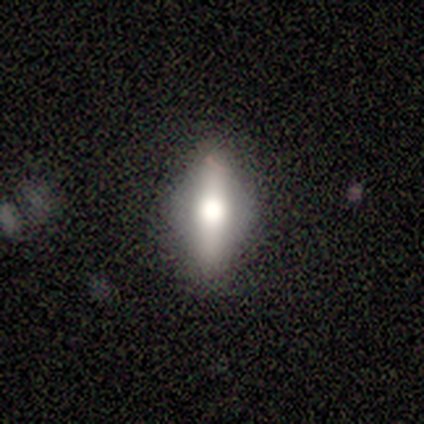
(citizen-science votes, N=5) smooth-or-featured: smooth: 60% | featured or disk: 40% | star or artifact: 0%
  how-rounded: in between: 67% | cigar-shaped: 33% | round: 0%
  merging: none: 100% | minor disturbance: 0% | major disturbance: 0% | merger: 0%